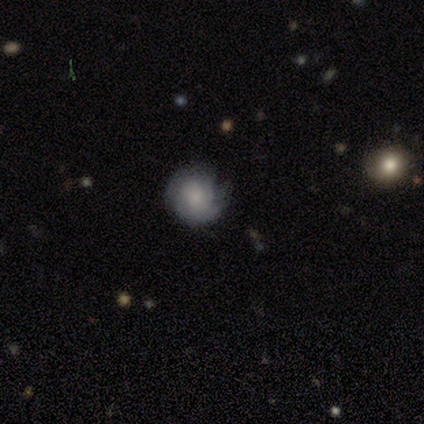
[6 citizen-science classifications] Overall: smooth (83%). How rounded: round (100%). Merging: none (67%; minor disturbance 33%).